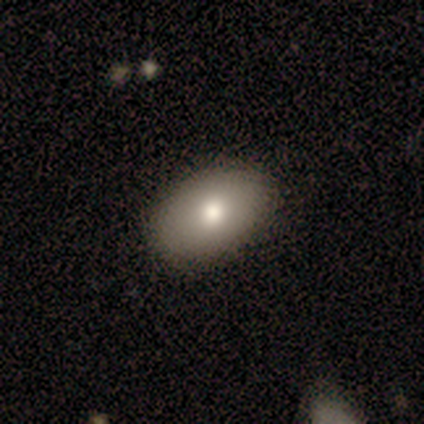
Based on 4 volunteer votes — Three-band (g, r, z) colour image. It shows a smooth galaxy with no disk features (100%) that is in between round and cigar-shaped (100%). Merging: none (75%).